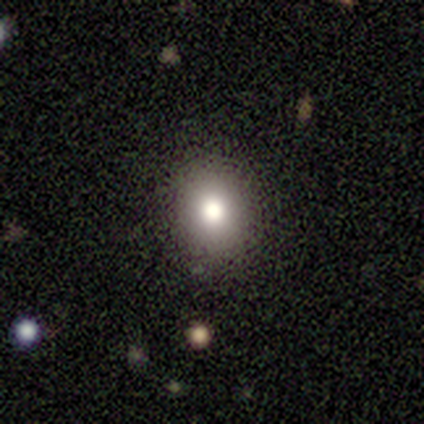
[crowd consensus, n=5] This is likely a smooth galaxy (60%). How rounded: clearly in between (100%). Merging: clearly none (80%).